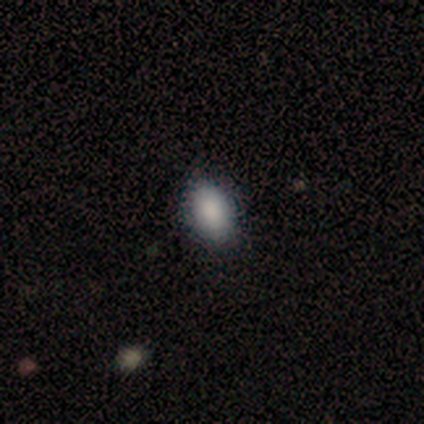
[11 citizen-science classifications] Smooth or featured? 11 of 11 (100%) said smooth. How rounded? 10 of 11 (91%) said in between. Merging? 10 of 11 (91%) said none.